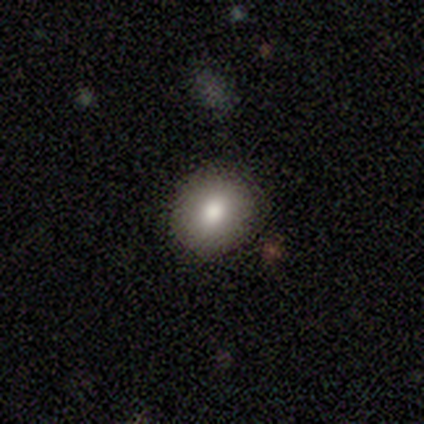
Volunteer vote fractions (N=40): smooth 68%, star or artifact 18%, featured or disk 15%. Down the decision tree: how rounded — round (81%); merging — none (94%).